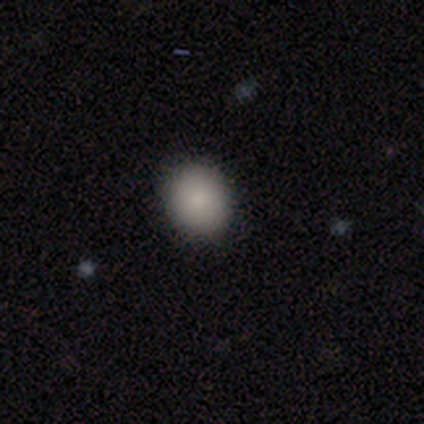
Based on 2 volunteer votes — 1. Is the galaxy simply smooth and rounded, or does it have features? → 100% smooth, 0% featured or disk, 0% star or artifact.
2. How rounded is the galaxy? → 50% round (tied), 50% in between (tied), 0% cigar-shaped.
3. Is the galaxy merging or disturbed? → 100% none, 0% minor disturbance, 0% major disturbance, 0% merger.